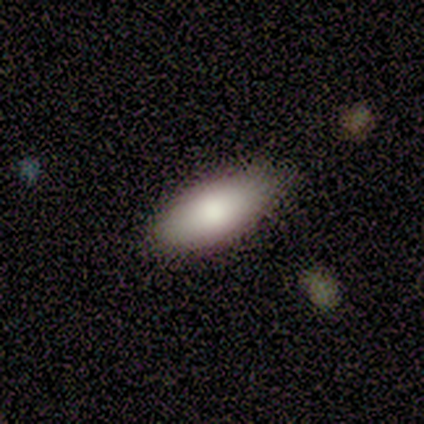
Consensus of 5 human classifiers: A smooth galaxy with no disk features (100%) that is in between round and cigar-shaped (100%). Merging: none (100%).